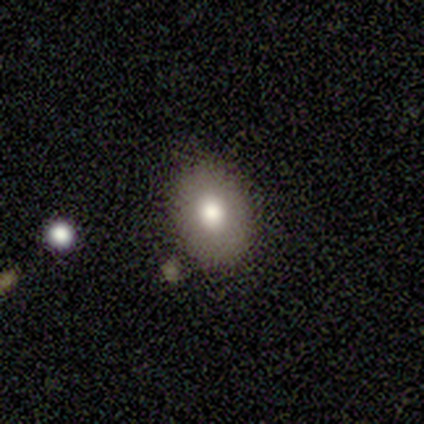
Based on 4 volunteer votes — A smooth galaxy with no disk features (100%) that is in between round and cigar-shaped (75%). Merging: none (100%).